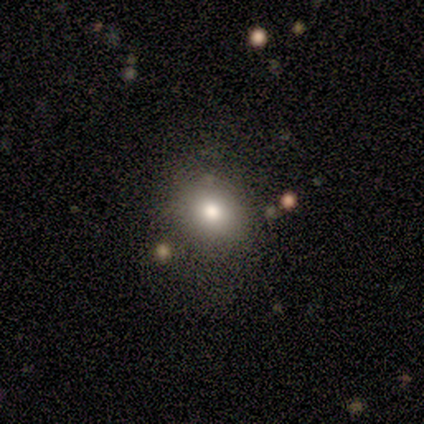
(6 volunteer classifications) This appears to be a smooth galaxy with no disk features (67%) that is round (75%). Merging: none (83%).